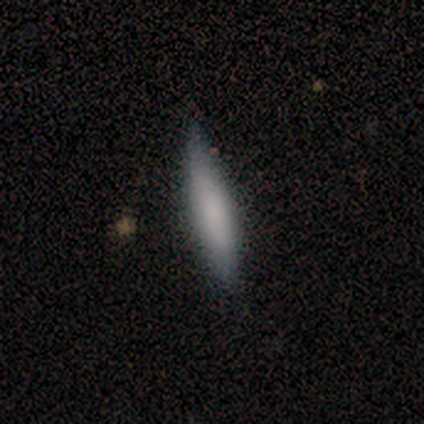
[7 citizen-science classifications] Volunteers were most divided on "how rounded": cigar-shaped: 86%, in between: 14%, round: 0%. More confident: smooth or featured — smooth (100%); merging — none (86%).